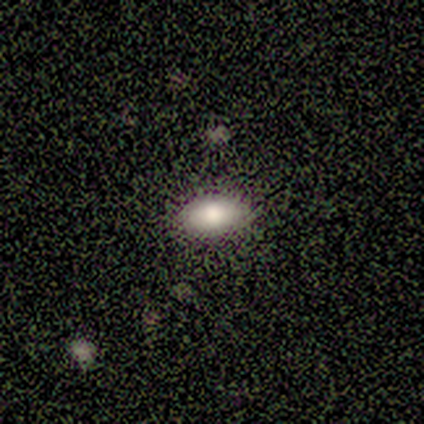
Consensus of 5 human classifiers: Overall: smooth (100%). How rounded: in between (100%). Merging: none (100%).